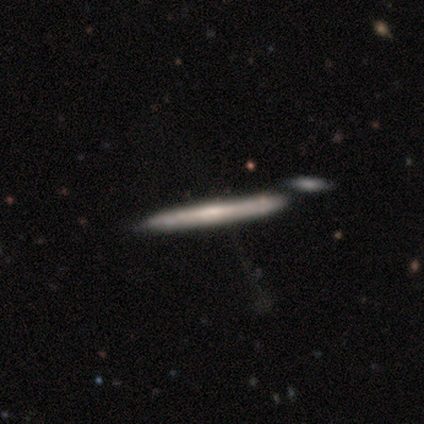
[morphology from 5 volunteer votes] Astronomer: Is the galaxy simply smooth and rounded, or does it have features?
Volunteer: featured or disk — 60% (runner-up: smooth, 40%).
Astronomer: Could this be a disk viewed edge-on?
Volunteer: yes — 100%.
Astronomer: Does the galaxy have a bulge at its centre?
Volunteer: none — 100%.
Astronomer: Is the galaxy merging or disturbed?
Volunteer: none — 60%.